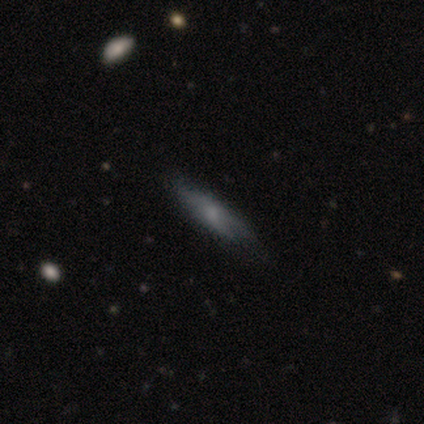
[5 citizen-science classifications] Smooth or featured: smooth — 100%
How rounded: in between — 60% (cigar-shaped — 40%)
Merging: minor disturbance — 40% (none — 20%)